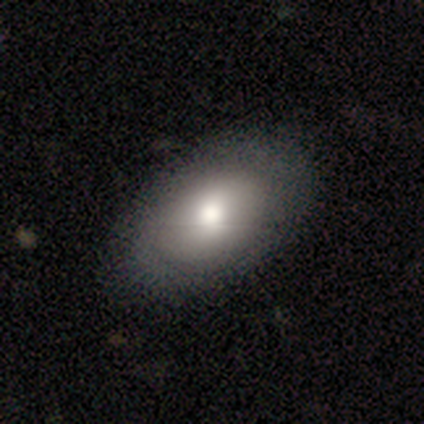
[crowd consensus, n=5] Smooth or featured: smooth — 80% (featured or disk — 20%)
How rounded: in between — 75% (round — 25%)
Merging: none — 100%